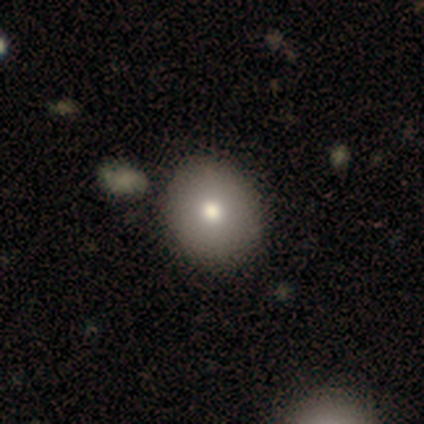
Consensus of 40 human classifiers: This appears to be a smooth galaxy with no disk features (82%) that is round (73%). Merging: none (63%).